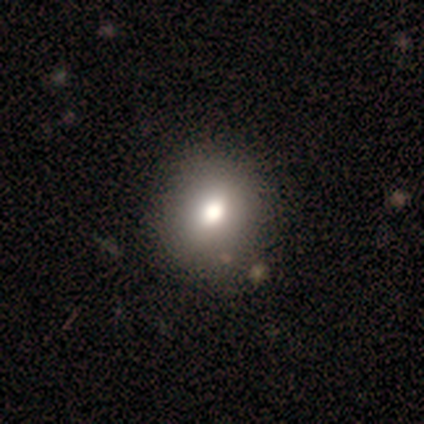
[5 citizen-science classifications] This is clearly a smooth galaxy (80%). How rounded: clearly round (100%). Merging: clearly none (80%).